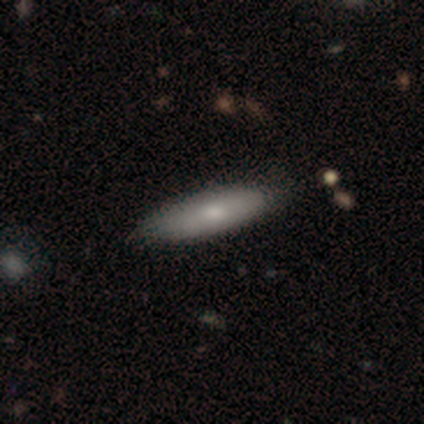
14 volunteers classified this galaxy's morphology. A smooth galaxy with no disk features (79%) that is cigar-shaped (82%).

Vote fractions:
- Smooth or featured? smooth: 79% / featured or disk: 14% / star or artifact: 7%
- How rounded? cigar-shaped: 82% / in between: 18% / round: 0%
- Merging? none: 100% / minor disturbance: 0% / major disturbance: 0% / merger: 0%